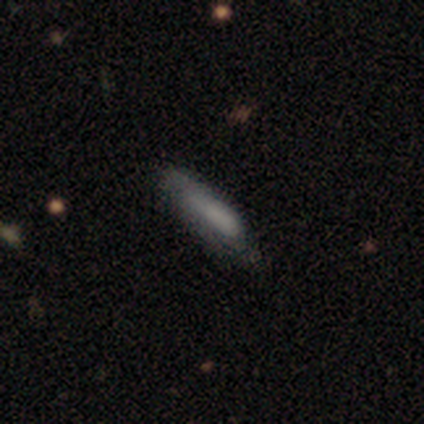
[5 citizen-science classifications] Smooth or featured: smooth — 60% (featured or disk — 20%)
How rounded: cigar-shaped — 67% (in between — 33%)
Merging: none — 75% (minor disturbance — 25%)